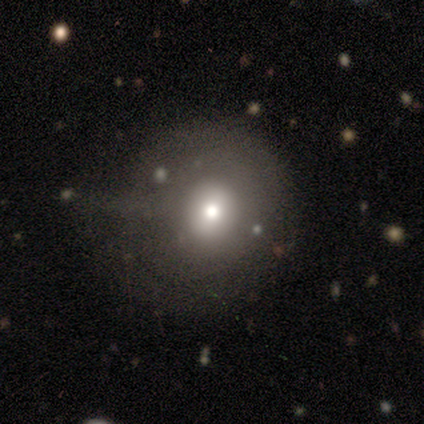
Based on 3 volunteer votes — Smooth or featured? smooth (67%)
How rounded? round (50%, tied with in between)
Merging? major disturbance (100%)